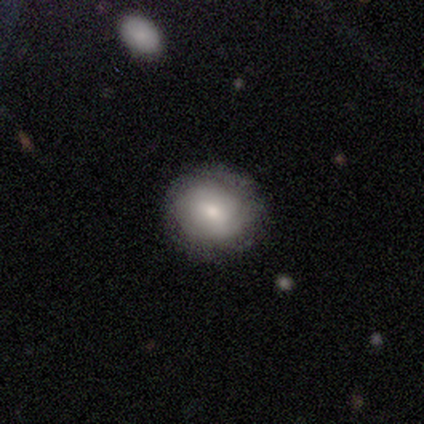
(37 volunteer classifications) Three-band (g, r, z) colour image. It shows a smooth galaxy with no disk features (65%) that is round (83%). Merging: none (97%).